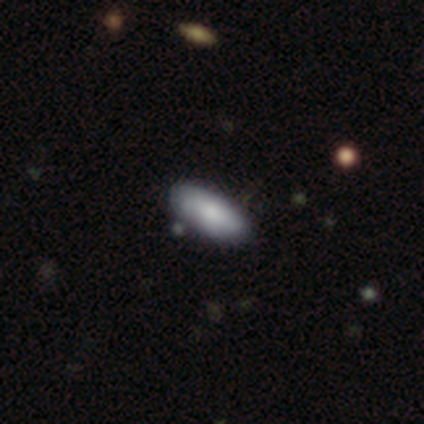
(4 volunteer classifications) Smooth or featured: smooth — 100%
How rounded: in between — 100%
Merging: none — 75% (minor disturbance — 25%)